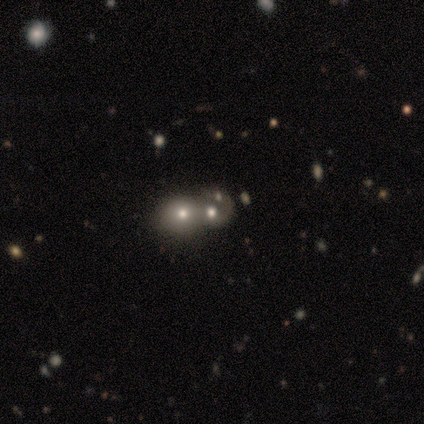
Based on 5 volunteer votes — smooth_or_featured: featured or disk (p=0.40) [tied with: star or artifact p=0.40]
disk_edge_on: no (p=1.00)
bar: no (p=1.00)
has_spiral_arms: no (p=1.00)
bulge_size: moderate (p=1.00)
merging: merger (p=0.67) [alt: none p=0.33]